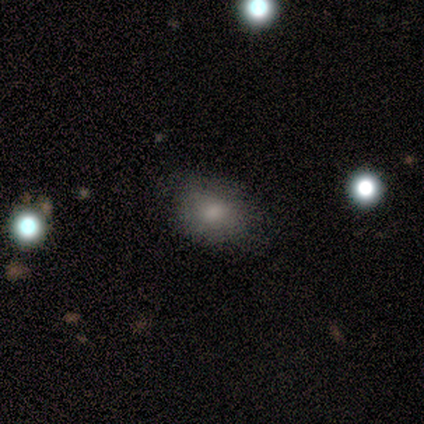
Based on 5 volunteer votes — A smooth galaxy with no disk features (60%) that is in between round and cigar-shaped (67%).

Vote fractions:
- Smooth or featured? smooth: 60% / featured or disk: 20% / star or artifact: 20%
- How rounded? in between: 67% / round: 33% / cigar-shaped: 0%
- Merging? none: 75% / minor disturbance: 25% / major disturbance: 0% / merger: 0%